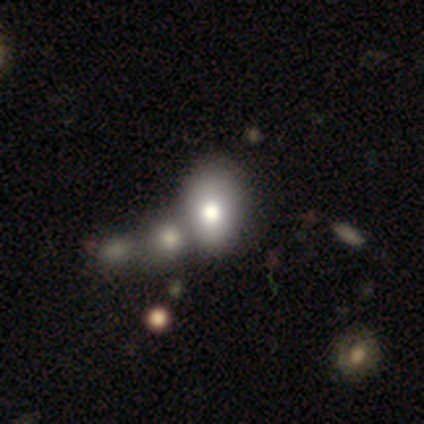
This is likely a smooth galaxy (75%). How rounded: likely in between (70%). Merging: possibly merger (53%).